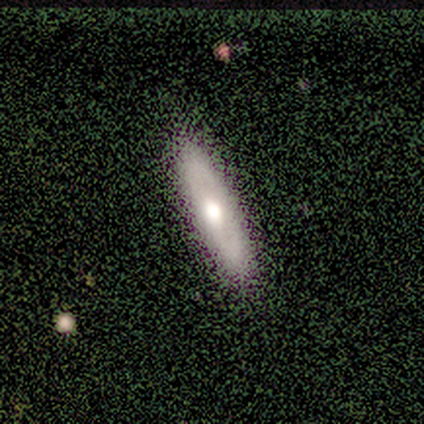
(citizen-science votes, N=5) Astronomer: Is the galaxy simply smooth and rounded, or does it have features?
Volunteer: smooth — 80%.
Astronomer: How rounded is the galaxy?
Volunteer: cigar-shaped — 100%.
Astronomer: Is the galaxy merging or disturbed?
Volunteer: none — 100%.